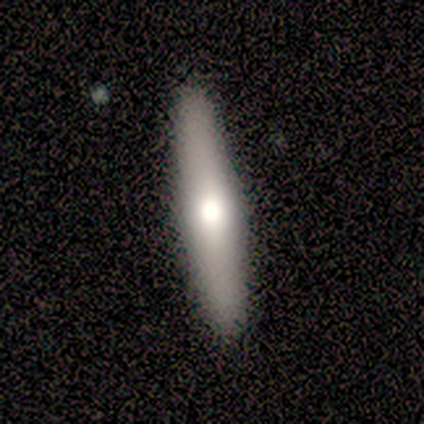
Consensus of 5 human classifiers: Volunteers were most divided on "smooth or featured": smooth: 60%, featured or disk: 20%, star or artifact: 20%. More confident: how rounded — cigar-shaped (100%); merging — none (100%).